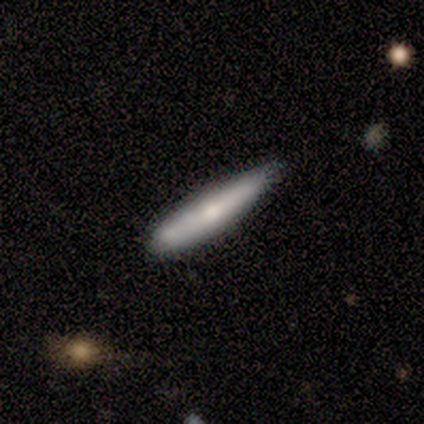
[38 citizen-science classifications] Smooth or featured? 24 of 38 (63%) said smooth. How rounded? 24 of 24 (100%) said cigar-shaped. Merging? 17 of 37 (46%, tied with minor disturbance) said none.